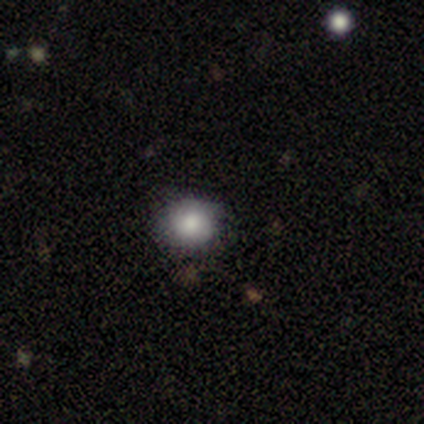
Q: Smooth or featured?
A: smooth (83%); runner-up: featured or disk (17%)
Q: How rounded?
A: round (80%); runner-up: in between (20%)
Q: Merging?
A: none (83%); runner-up: merger (17%)